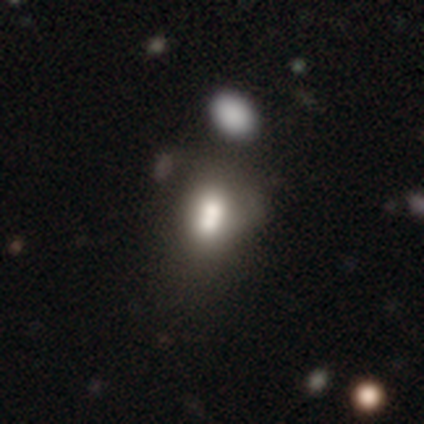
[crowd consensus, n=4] smooth-or-featured: star or artifact: 75% | smooth: 25% | featured or disk: 0%